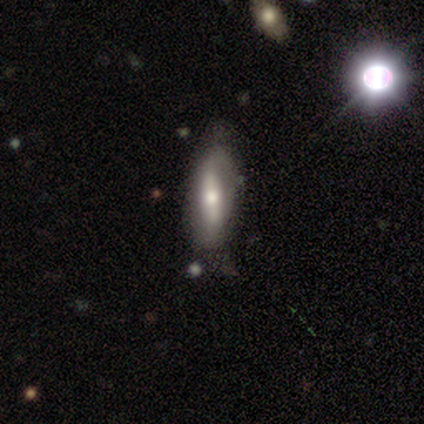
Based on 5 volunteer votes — Morphology: type=featured or disk (60%); edge-on=no (67%); bar=strong (100%); spiral arms=no (100%); bulge=moderate (100%); merging=minor disturbance (50%).